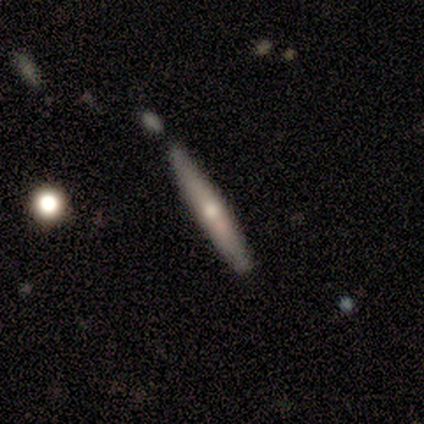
Morphology: type=smooth (50%, tied with featured or disk); roundness=cigar-shaped (100%); merging=none (100%).